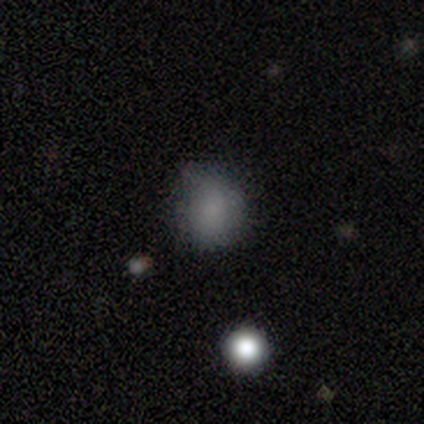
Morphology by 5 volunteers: smooth_or_featured: smooth (p=0.80) [alt: featured or disk p=0.20]
how_rounded: round (p=1.00)
merging: none (p=0.60) [alt: minor disturbance p=0.40]